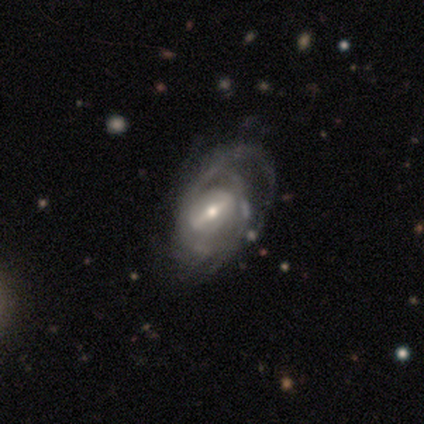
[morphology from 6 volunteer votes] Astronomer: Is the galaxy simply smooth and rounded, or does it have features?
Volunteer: featured or disk — 100%.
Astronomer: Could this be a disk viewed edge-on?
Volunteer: no — 100%.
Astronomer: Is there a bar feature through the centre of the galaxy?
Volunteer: strong — 33%, tied with weak and no at 33%.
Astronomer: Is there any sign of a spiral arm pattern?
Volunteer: yes — 100%.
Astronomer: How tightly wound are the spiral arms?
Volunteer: medium — 50% (runner-up: loose, 33%).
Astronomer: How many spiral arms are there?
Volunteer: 4 — 33%, tied with can't tell at 33%.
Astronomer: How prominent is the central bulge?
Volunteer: small — 67%.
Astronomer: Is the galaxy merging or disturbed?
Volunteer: major disturbance — 50% (runner-up: none, 33%).